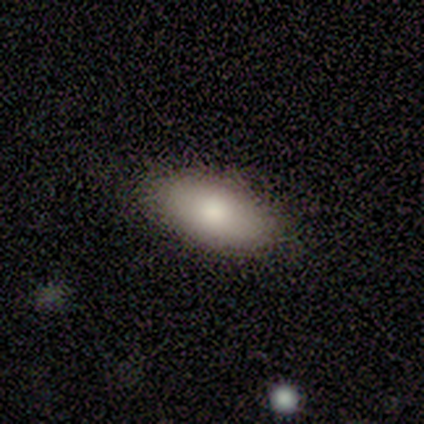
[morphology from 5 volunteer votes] Overall: smooth (60%; featured or disk 40%). How rounded: in between (100%). Merging: none (100%).